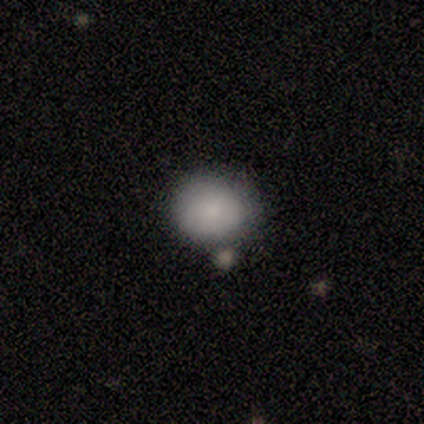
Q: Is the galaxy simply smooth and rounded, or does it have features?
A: smooth — 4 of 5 (80%).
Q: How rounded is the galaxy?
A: round — 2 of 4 (50%, tied with in between).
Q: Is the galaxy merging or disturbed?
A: none — 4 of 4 (100%).